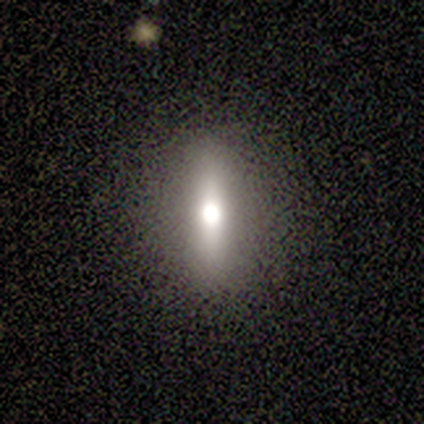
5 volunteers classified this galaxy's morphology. smooth-or-featured: smooth: 80% | featured or disk: 20% | star or artifact: 0%
  how-rounded: round: 50% | in between: 25% | cigar-shaped: 25%
  merging: none: 80% | minor disturbance: 20% | major disturbance: 0% | merger: 0%